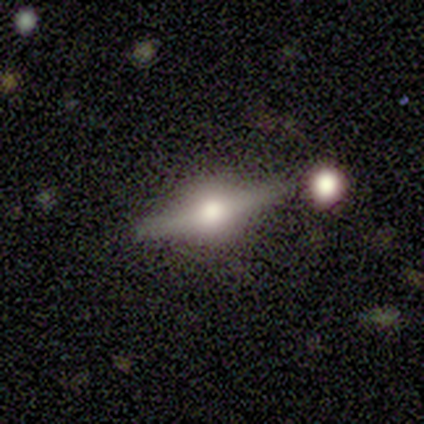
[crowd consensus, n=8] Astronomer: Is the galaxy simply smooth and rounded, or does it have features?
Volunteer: featured or disk — 75%.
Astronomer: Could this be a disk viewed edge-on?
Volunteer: yes — 100%.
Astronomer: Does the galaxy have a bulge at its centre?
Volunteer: rounded — 100%.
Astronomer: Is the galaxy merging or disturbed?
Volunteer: none — 75%.